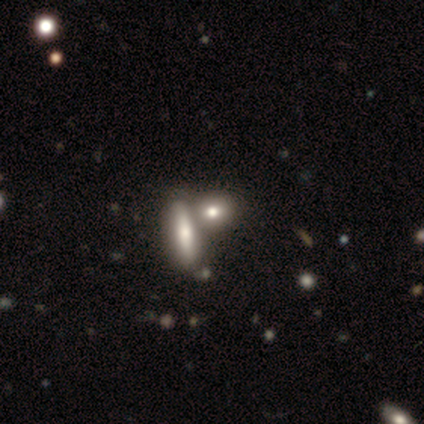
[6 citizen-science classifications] This appears to be a smooth galaxy with no disk features (83%) that is in between round and cigar-shaped (40%, tied with cigar-shaped). Merging: none (50%).